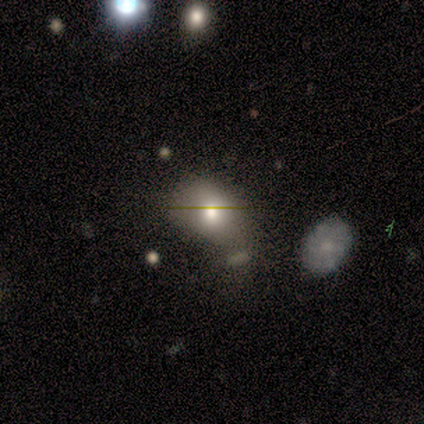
This is clearly a smooth galaxy (80%). How rounded: likely in between (75%). Merging: likely minor disturbance (75%).